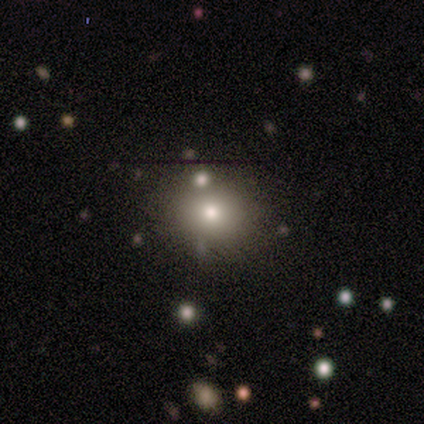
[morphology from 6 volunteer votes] Smooth or featured? smooth (83%)
How rounded? in between (60%)
Merging? none (100%)